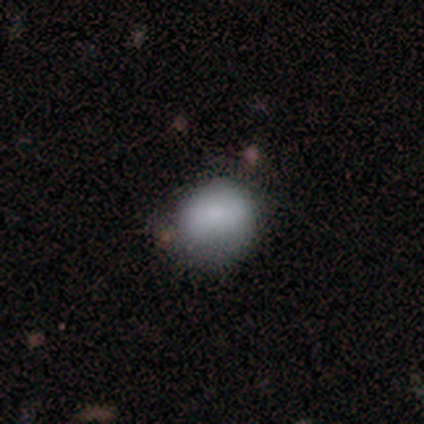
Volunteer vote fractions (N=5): Smooth or featured: smooth — 80% (star or artifact — 20%)
How rounded: round — 75% (in between — 25%)
Merging: none — 50% (tied with minor disturbance — 50%)